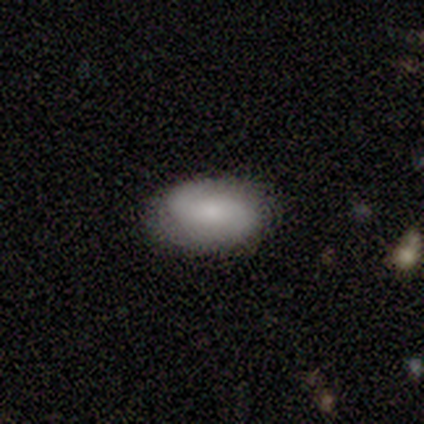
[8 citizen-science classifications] Volunteers were most divided on "merging": none: 62%, minor disturbance: 38%, major disturbance: 0%, merger: 0%. More confident: how rounded — in between (100%); smooth or featured — smooth (88%).